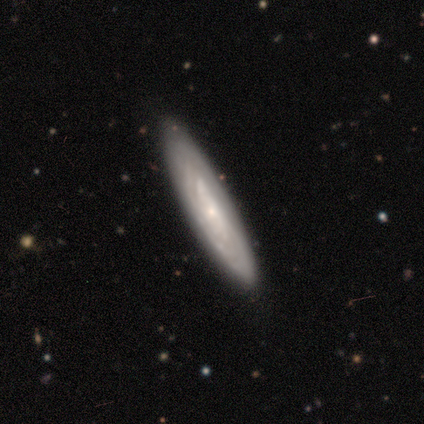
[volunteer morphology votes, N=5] type=featured or disk (100%); edge-on=no (60%); bar=no (67%); spiral arms=yes (67%); winding=tight (100%); arm count=can't tell (100%); bulge=small (67%); merging=none (100%).